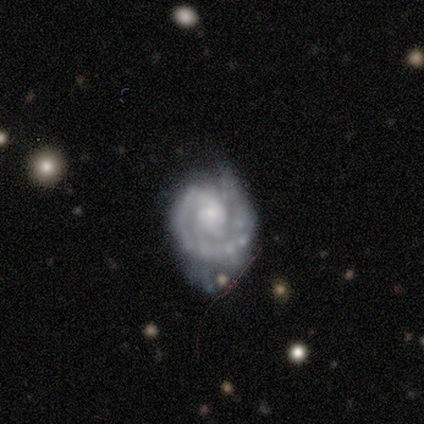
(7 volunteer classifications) Smooth or featured?
  - featured or disk: 100% *
  - smooth: 0%
  - star or artifact: 0%
Edge-on disk?
  - no: 100% *
  - yes: 0%
Bar?
  - no: 86% *
  - weak: 14%
  - strong: 0%
Spiral arms?
  - yes: 100% *
  - no: 0%
Spiral winding?
  - medium: 57% *
  - tight: 43%
  - loose: 0%
Spiral arm count?
  - 1: 57% *
  - can't tell: 29%
  - 4: 14%
  - 2: 0%
  - 3: 0%
  - more than 4: 0%
Bulge size?
  - small: 57% *
  - moderate: 43%
  - dominant: 0%
  - large: 0%
  - none: 0%
Merging?
  - none: 57% *
  - minor disturbance: 29%
  - major disturbance: 14%
  - merger: 0%